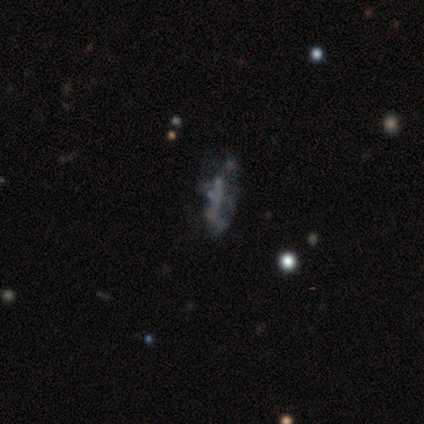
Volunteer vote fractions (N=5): This appears to be a featured or disk galaxy (40%, tied with star or artifact) with no bar (100%), no spiral arms (100%) and a moderate central bulge (50%, tied with none). Merging: merger (67%).